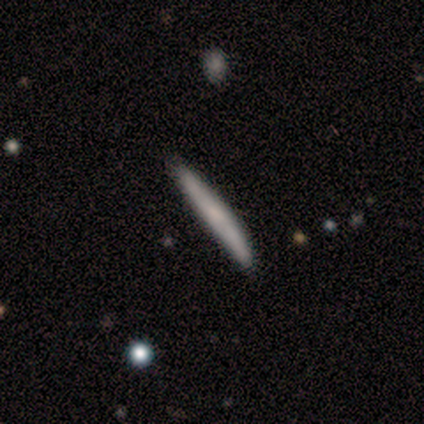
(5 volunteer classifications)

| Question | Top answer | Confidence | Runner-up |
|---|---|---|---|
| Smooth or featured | smooth | 100% | — |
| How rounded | cigar-shaped | 100% | — |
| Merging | none | 100% | — |